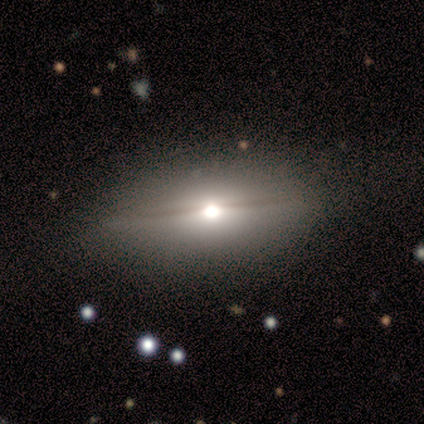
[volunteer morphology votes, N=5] Smooth or featured: featured or disk — 60% (smooth — 40%)
Edge-on disk: yes — 100%
Edge-on bulge: rounded — 100%
Merging: none — 80% (minor disturbance — 20%)